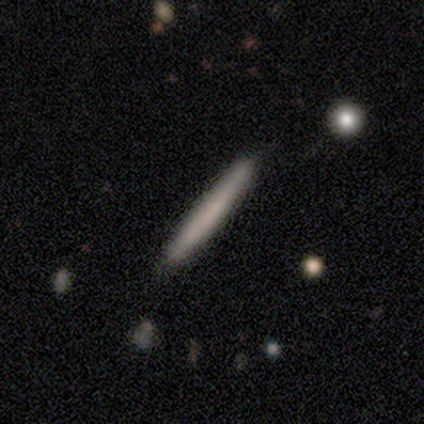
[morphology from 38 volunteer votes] smooth-or-featured: smooth: 68% | featured or disk: 32% | star or artifact: 0%
  how-rounded: cigar-shaped: 100% | round: 0% | in between: 0%
  merging: none: 82% | minor disturbance: 11% | merger: 5% | major disturbance: 3%